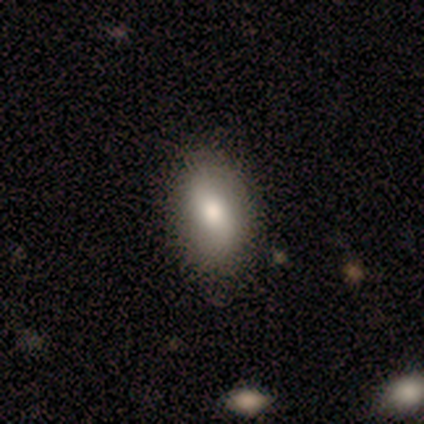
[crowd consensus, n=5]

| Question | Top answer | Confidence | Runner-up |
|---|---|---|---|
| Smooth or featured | smooth | 40% | tied: featured or disk (40%) |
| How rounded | in between | 100% | — |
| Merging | none | 75% | minor disturbance (25%) |